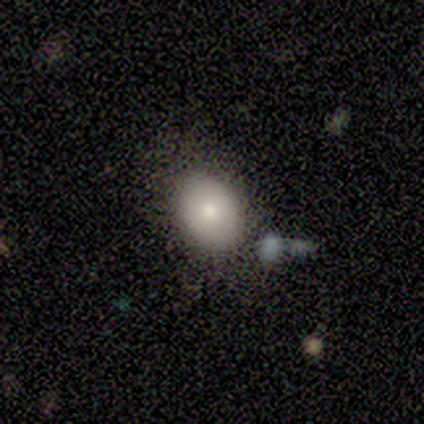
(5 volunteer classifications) A smooth galaxy with no disk features (80%) that is in between round and cigar-shaped (75%). Merging: none (80%).